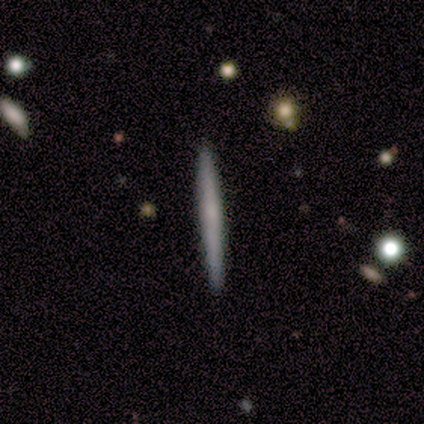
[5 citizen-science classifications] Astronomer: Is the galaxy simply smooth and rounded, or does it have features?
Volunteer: smooth — 80%.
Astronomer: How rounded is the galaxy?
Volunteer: cigar-shaped — 100%.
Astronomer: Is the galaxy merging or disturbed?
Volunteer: none — 100%.